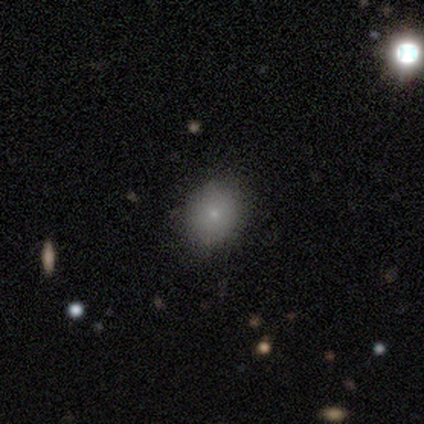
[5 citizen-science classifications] smooth_or_featured: smooth (p=0.60) [alt: star or artifact p=0.40]
how_rounded: round (p=0.67) [alt: in between p=0.33]
merging: none (p=0.67) [alt: minor disturbance p=0.33]